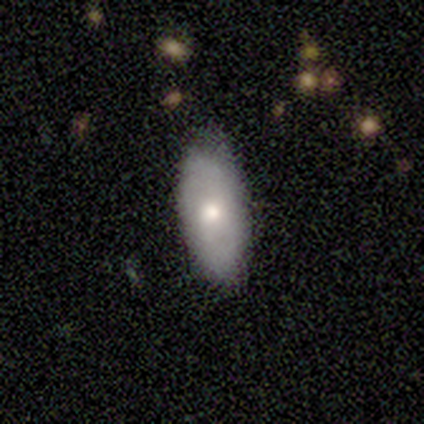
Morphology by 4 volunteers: Overall: smooth (100%). How rounded: in between (100%). Merging: none (50%, tied with minor disturbance).